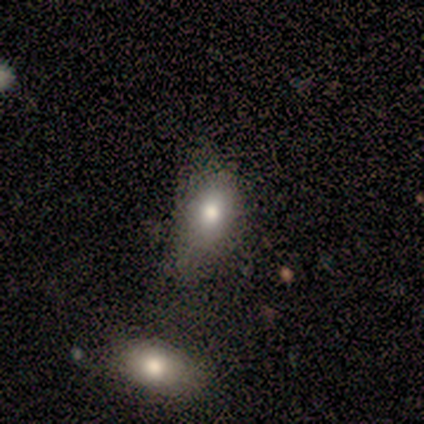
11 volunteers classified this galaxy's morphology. Smooth or featured? smooth (82%)
How rounded? in between (89%)
Merging? none (33%, tied with minor disturbance)